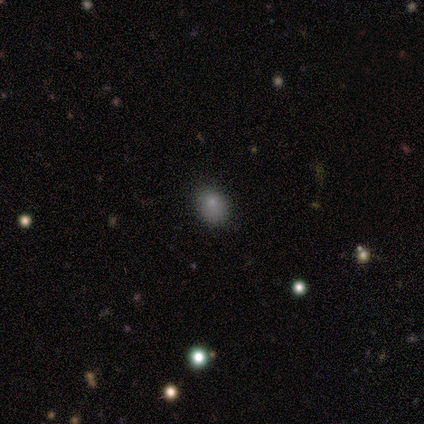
smooth 40% (tied), star or artifact 40% (tied), featured or disk 20%. Down the decision tree: how rounded — round (50%, tied with in between); merging — none (67%).